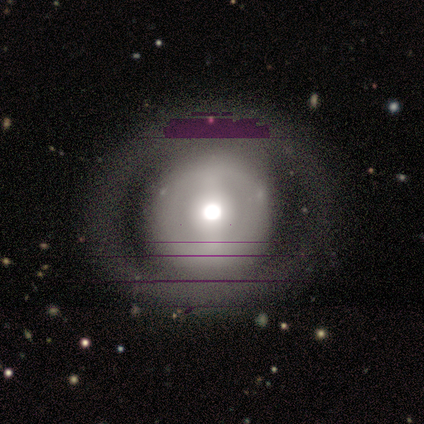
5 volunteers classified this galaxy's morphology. Smooth or featured?
  - featured or disk: 60% *
  - smooth: 20%
  - star or artifact: 20%
Edge-on disk?
  - no: 100% *
  - yes: 0%
Bar?
  - weak: 67% *
  - no: 33%
  - strong: 0%
Spiral arms?
  - no: 67% *
  - yes: 33%
Bulge size?
  - large: 67% *
  - small: 33%
  - dominant: 0%
  - moderate: 0%
  - none: 0%
Merging?
  - none: 100% *
  - minor disturbance: 0%
  - major disturbance: 0%
  - merger: 0%